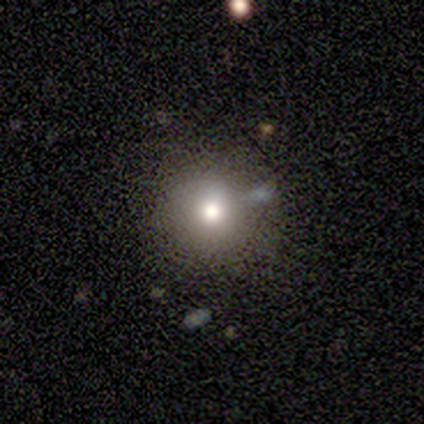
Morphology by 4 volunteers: smooth 100%, featured or disk 0%, star or artifact 0%. Down the decision tree: how rounded — round (75%); merging — none (100%).